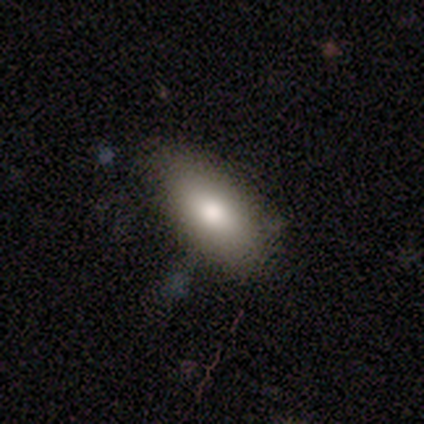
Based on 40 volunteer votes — Smooth or featured: smooth — 78% (featured or disk — 15%)
How rounded: in between — 97% (round — 3%)
Merging: none — 59% (minor disturbance — 19%)